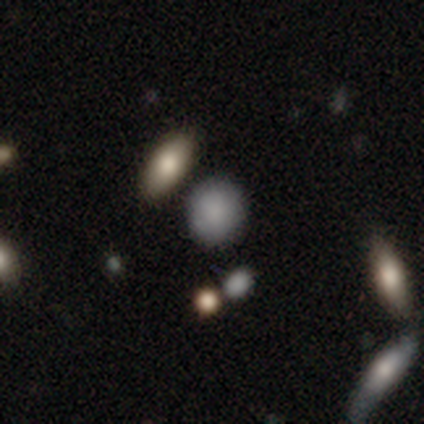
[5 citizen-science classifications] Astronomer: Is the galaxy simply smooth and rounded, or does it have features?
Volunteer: smooth — 80%.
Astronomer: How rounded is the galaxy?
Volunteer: round — 50%.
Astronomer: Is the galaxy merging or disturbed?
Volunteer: none — 75%.